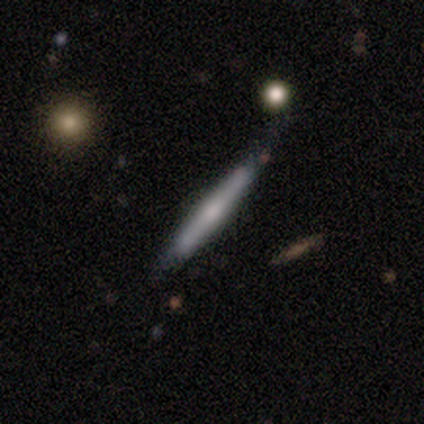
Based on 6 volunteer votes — Overall: featured or disk (67%; smooth 33%). Edge-on disk: yes (75%). Edge-on bulge: rounded (100%). Merging: none (83%).